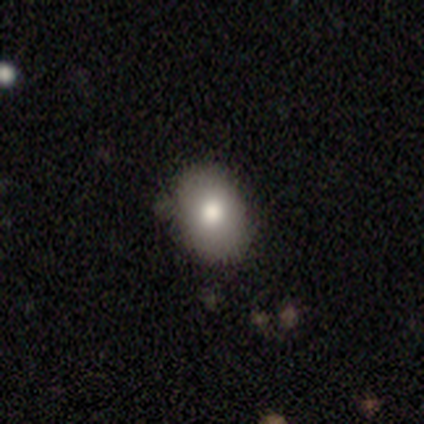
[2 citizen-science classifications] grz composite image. It shows a smooth galaxy with no disk features (50%, tied with star or artifact) that is in between round and cigar-shaped (100%). Merging: none (100%).